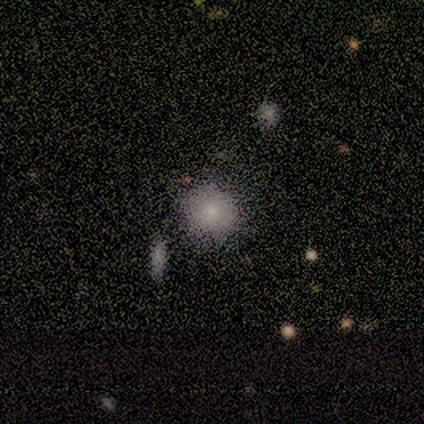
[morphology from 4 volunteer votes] A smooth galaxy with no disk features (75%) that is round (100%). Merging: none (75%).